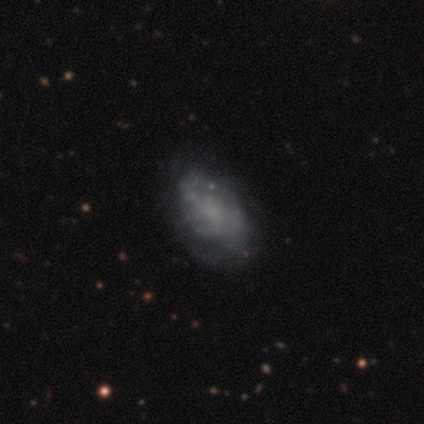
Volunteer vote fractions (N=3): smooth-or-featured: smooth: 67% | featured or disk: 33% | star or artifact: 0%
  how-rounded: in between: 100% | round: 0% | cigar-shaped: 0%
  merging: none: 33% (tied) | minor disturbance: 33% (tied) | major disturbance: 33% (tied) | merger: 0%